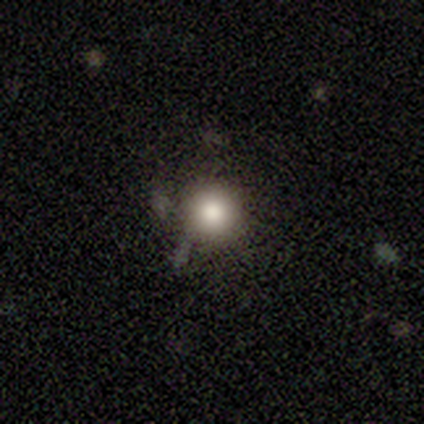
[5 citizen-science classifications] Smooth or featured? smooth (60%)
How rounded? round (100%)
Merging? none (67%)